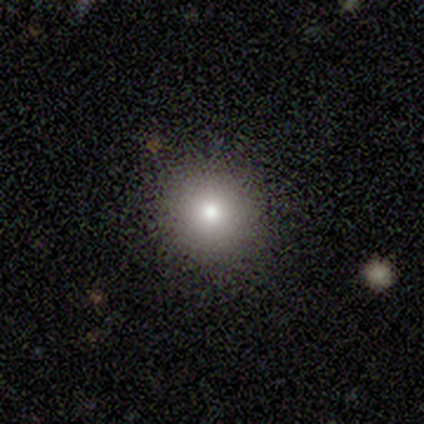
This appears to be a smooth galaxy with no disk features (75%) that is round (100%). Merging: none (67%).